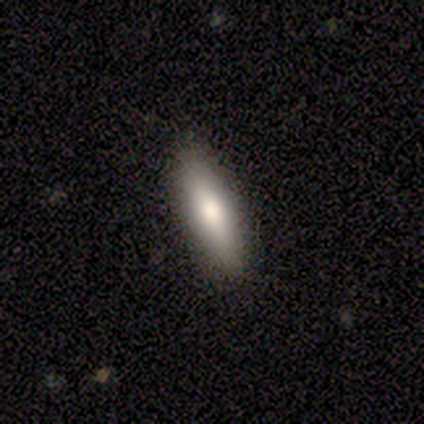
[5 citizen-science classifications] Q: Smooth or featured?
A: smooth (40%); tied with: featured or disk (40%)
Q: How rounded?
A: in between (50%); tied with: cigar-shaped (50%)
Q: Merging?
A: none (100%)